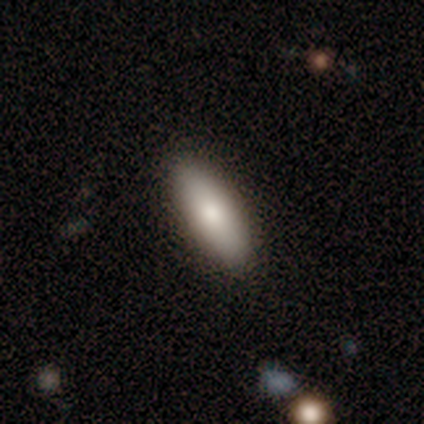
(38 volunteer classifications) Volunteers were most divided on "smooth or featured": smooth: 68%, featured or disk: 24%, star or artifact: 8%. More confident: merging — none (89%); how rounded — in between (81%).